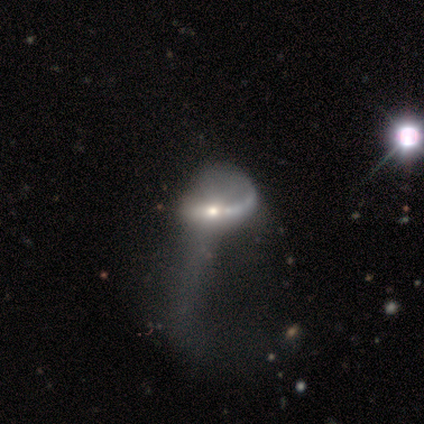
smooth-or-featured: featured or disk: 83% | smooth: 17% | star or artifact: 0%
  disk-edge-on: no: 100% | yes: 0%
    bar: no: 60% | weak: 40% | strong: 0%
    has-spiral-arms: no: 80% | yes: 20%
    bulge-size: moderate: 60% | small: 40% | dominant: 0% | large: 0% | none: 0%
  merging: major disturbance: 100% | none: 0% | minor disturbance: 0% | merger: 0%